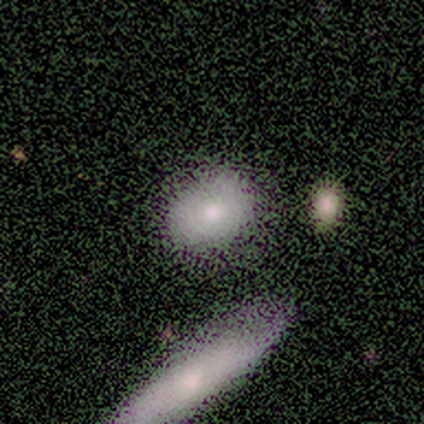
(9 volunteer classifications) smooth_or_featured: smooth (p=1.00)
how_rounded: in between (p=0.78) [alt: round p=0.11]
merging: none (p=0.56) [alt: major disturbance p=0.33]